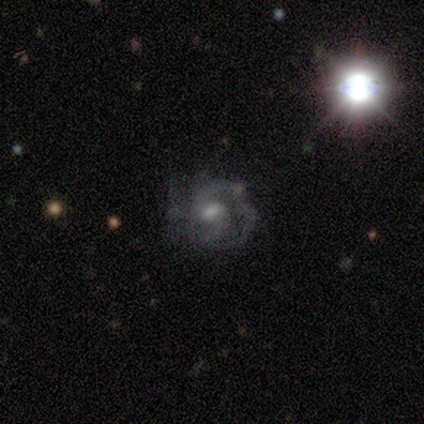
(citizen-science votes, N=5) Overall: featured or disk (60%; smooth 20%). Edge-on disk: no (100%). Bar: no (67%; weak 33%). Spiral arms: yes (100%). Spiral arm count: can't tell (67%; 1 33%). Spiral winding: tight (33%, tied with medium and loose). Bulge size: moderate (67%; none 33%). Merging: none (75%).